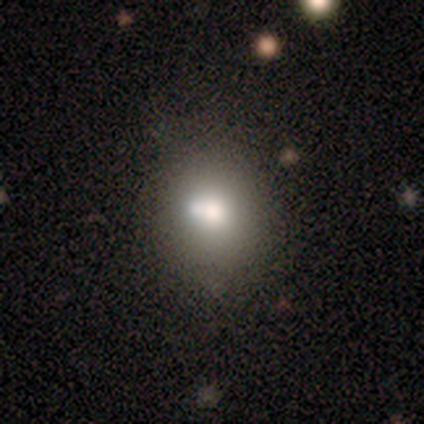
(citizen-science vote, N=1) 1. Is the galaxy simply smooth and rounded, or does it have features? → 100% smooth, 0% featured or disk, 0% star or artifact.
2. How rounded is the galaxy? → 100% in between, 0% round, 0% cigar-shaped.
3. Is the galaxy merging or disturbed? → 100% none, 0% minor disturbance, 0% major disturbance, 0% merger.